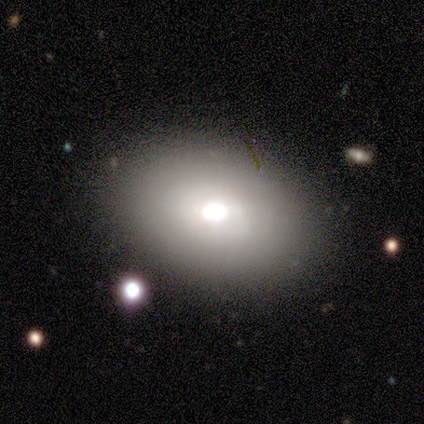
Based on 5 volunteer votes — Smooth or featured? featured or disk (60%)
Edge-on disk? no (100%)
Bar? no (100%)
Spiral arms? no (100%)
Bulge size? large (67%)
Merging? none (100%)